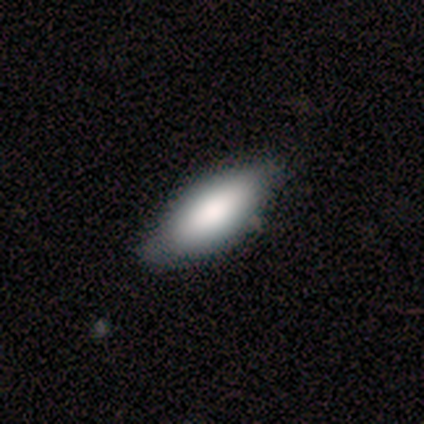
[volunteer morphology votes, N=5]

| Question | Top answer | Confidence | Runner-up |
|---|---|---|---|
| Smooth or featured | smooth | 100% | — |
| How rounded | in between | 80% | cigar-shaped (20%) |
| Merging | none | 80% | minor disturbance (20%) |